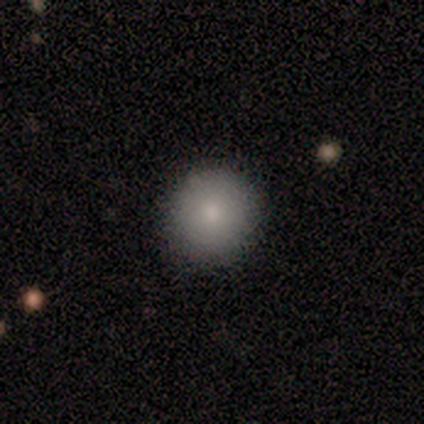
Morphology: type=smooth (100%); roundness=round (100%); merging=none (100%).